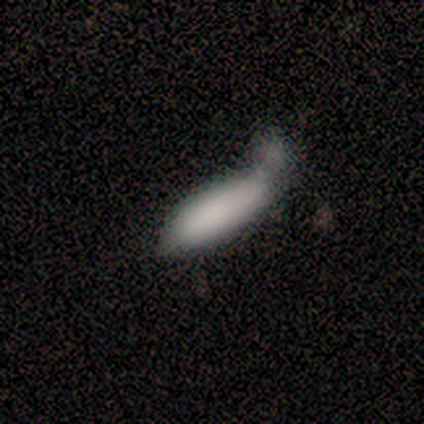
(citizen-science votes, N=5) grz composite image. It shows a smooth galaxy with no disk features (100%) that is in between round and cigar-shaped (80%). Merging: major disturbance (40%, tied with merger).